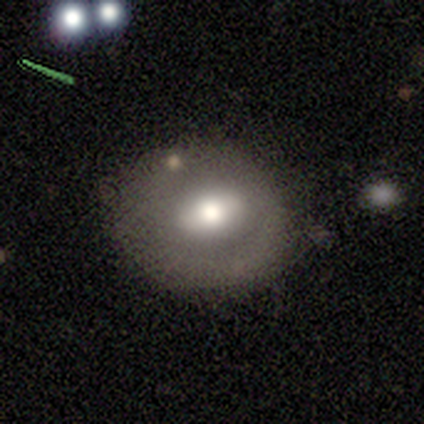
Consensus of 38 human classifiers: Q: Smooth or featured?
A: smooth (61%); runner-up: featured or disk (32%)
Q: How rounded?
A: round (57%); runner-up: in between (43%)
Q: Merging?
A: none (54%); runner-up: minor disturbance (34%)